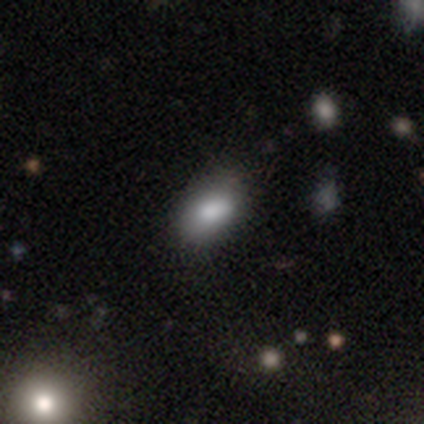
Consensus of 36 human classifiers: Smooth or featured? smooth (81%)
How rounded? in between (90%)
Merging? none (84%)